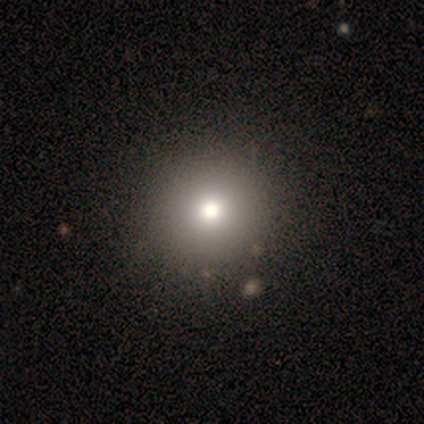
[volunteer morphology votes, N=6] This is clearly a smooth galaxy (83%). How rounded: clearly round (80%). Merging: likely none (60%).